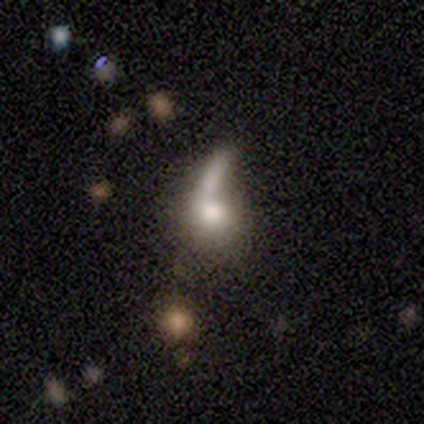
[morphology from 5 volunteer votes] Q: Smooth or featured?
A: smooth (40%); tied with: featured or disk (40%)
Q: How rounded?
A: round (50%); tied with: in between (50%)
Q: Merging?
A: none (25%); tied with: minor disturbance (25%); major disturbance (25%); merger (25%)